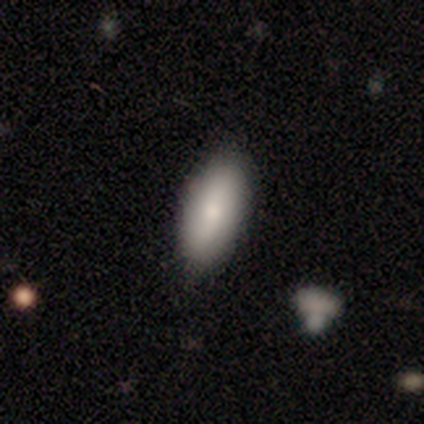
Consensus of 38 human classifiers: smooth-or-featured: smooth: 87% | featured or disk: 11% | star or artifact: 3%
  how-rounded: in between: 88% | cigar-shaped: 12% | round: 0%
  merging: none: 65% | minor disturbance: 22% | major disturbance: 8% | merger: 5%